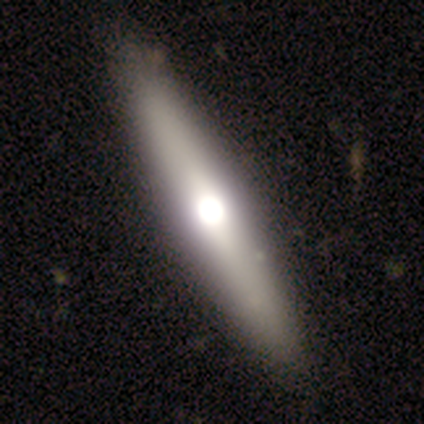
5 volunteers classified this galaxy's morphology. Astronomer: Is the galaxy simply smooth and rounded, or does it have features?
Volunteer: featured or disk — 60% (runner-up: smooth, 40%).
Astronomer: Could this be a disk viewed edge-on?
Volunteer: yes — 100%.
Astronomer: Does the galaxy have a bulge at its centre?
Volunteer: rounded — 67%.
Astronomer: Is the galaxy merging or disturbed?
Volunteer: none — 80%.